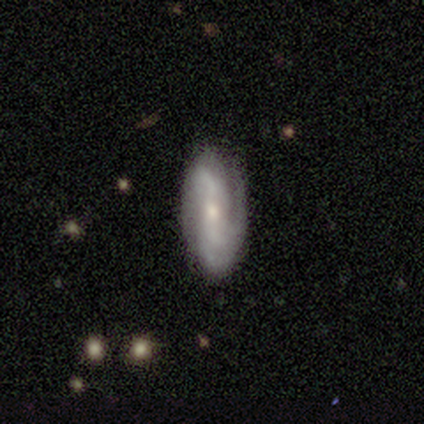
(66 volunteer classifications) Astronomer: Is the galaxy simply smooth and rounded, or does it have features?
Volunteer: featured or disk — 79%.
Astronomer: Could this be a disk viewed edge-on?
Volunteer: no — 94%.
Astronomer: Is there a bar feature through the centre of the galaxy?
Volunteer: no — 51% (runner-up: strong, 29%).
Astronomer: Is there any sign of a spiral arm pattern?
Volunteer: yes — 88%.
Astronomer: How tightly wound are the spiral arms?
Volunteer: medium — 47% (runner-up: tight, 28%).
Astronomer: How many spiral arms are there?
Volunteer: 2 — 53%.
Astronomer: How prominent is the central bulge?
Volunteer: moderate — 49% (runner-up: small, 45%).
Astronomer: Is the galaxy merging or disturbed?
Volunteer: none — 77%.